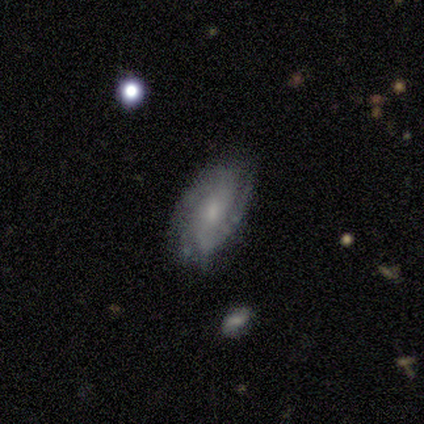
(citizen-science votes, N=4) Morphology: type=featured or disk (100%); edge-on=no (100%); bar=no (75%); spiral arms=yes (100%); winding=tight (75%); arm count=1 (50%, tied with 2); bulge=small (50%); merging=none (50%).